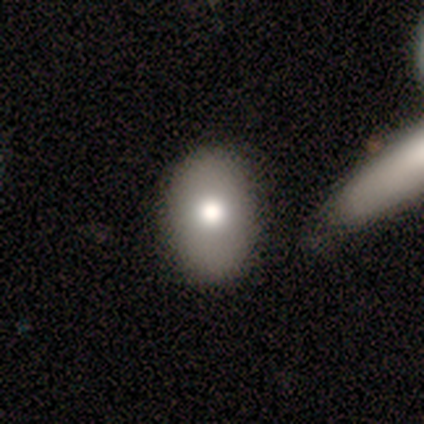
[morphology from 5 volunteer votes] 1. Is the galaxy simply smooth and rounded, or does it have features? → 60% smooth, 20% featured or disk, 20% star or artifact.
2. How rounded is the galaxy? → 67% in between, 33% round, 0% cigar-shaped.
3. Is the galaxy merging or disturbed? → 100% none, 0% minor disturbance, 0% major disturbance, 0% merger.